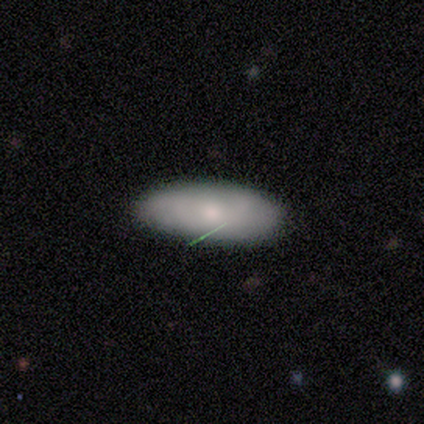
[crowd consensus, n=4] Smooth or featured? 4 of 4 (100%) said smooth. How rounded? 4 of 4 (100%) said in between. Merging? 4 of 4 (100%) said none.